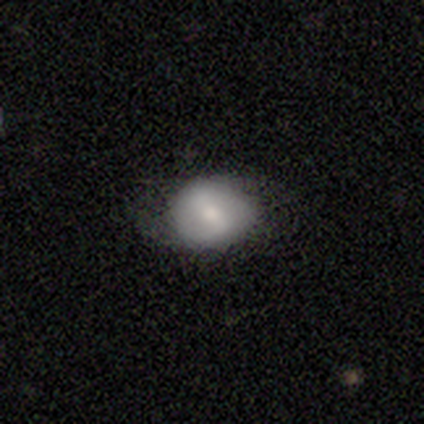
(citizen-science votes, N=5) Morphology: type=smooth (60%); roundness=round (67%); merging=none (60%).